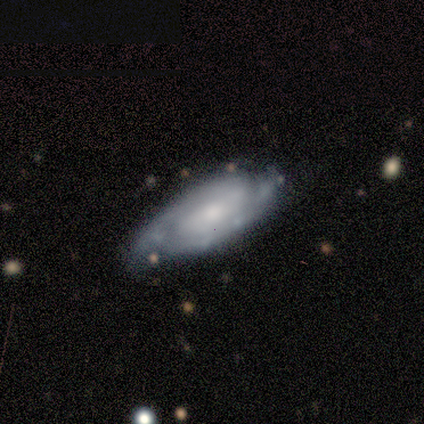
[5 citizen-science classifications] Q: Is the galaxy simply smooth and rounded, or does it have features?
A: featured or disk — 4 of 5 (80%).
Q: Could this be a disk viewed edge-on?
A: no — 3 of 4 (75%).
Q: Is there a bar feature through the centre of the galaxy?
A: strong — 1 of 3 (33%, tied with weak and no).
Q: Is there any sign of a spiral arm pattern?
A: yes — 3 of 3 (100%).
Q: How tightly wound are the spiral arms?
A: medium — 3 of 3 (100%).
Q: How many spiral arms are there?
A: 2 — 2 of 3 (67%).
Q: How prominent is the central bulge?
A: moderate — 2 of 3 (67%).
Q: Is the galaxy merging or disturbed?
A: none — 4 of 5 (80%).